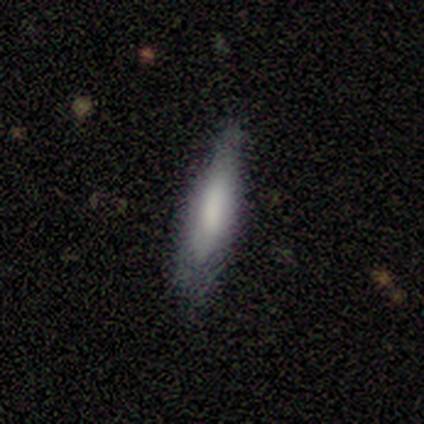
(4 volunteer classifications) Smooth or featured?
  - smooth: 75% *
  - featured or disk: 25%
  - star or artifact: 0%
How rounded?
  - cigar-shaped: 67% *
  - in between: 33%
  - round: 0%
Merging?
  - none: 50% *
  - minor disturbance: 25%
  - major disturbance: 25%
  - merger: 0%